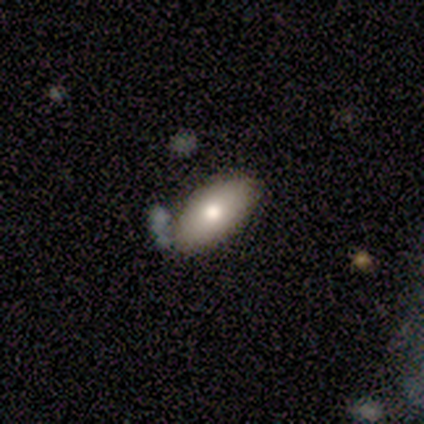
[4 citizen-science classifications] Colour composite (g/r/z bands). It shows a featured or disk galaxy (75%) with no bar (67%), no spiral arms (100%) and a moderate central bulge (67%). Merging: none (75%).